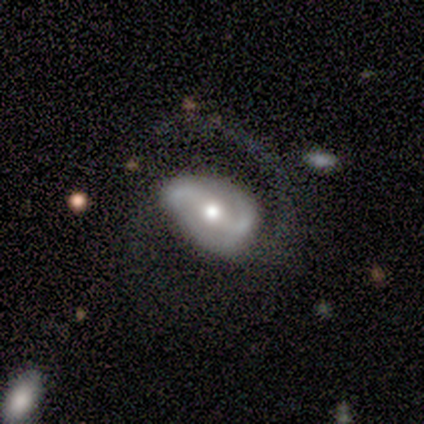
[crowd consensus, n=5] Q: Smooth or featured?
A: featured or disk (80%); runner-up: star or artifact (20%)
Q: Edge-on disk?
A: no (100%)
Q: Bar?
A: weak (50%); runner-up: strong (25%)
Q: Spiral arms?
A: yes (75%); runner-up: no (25%)
Q: Spiral winding?
A: loose (100%)
Q: Spiral arm count?
A: 2 (100%)
Q: Bulge size?
A: moderate (100%)
Q: Merging?
A: major disturbance (75%); runner-up: none (25%)